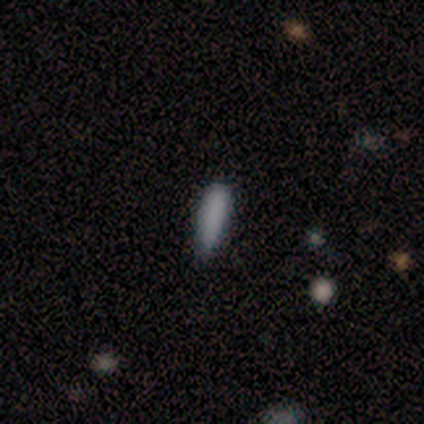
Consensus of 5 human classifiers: A smooth galaxy with no disk features (80%) that is cigar-shaped (75%). Merging: none (50%, tied with minor disturbance).